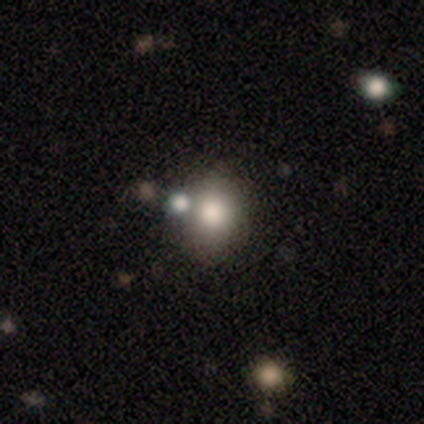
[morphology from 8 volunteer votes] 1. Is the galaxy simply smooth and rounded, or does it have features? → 88% smooth, 12% featured or disk, 0% star or artifact.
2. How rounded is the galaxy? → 57% in between, 43% round, 0% cigar-shaped.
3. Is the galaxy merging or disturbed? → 88% none, 12% minor disturbance, 0% major disturbance, 0% merger.